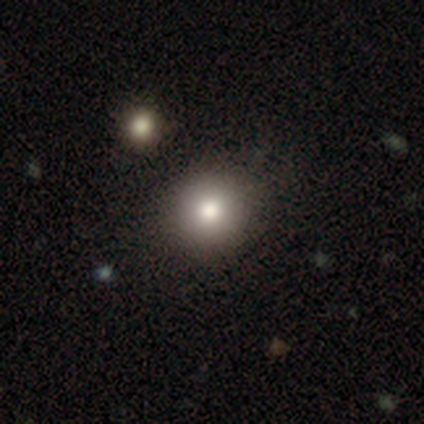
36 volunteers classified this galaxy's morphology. Q: Smooth or featured?
A: smooth (78%); runner-up: featured or disk (14%)
Q: How rounded?
A: round (89%); runner-up: in between (11%)
Q: Merging?
A: none (70%); runner-up: minor disturbance (21%)